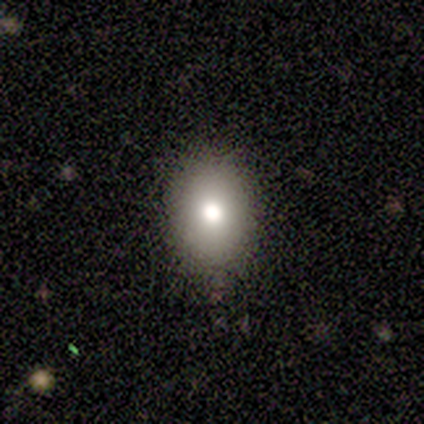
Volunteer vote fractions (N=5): This appears to be a smooth galaxy with no disk features (60%) that is in between round and cigar-shaped (100%). Merging: none (75%).